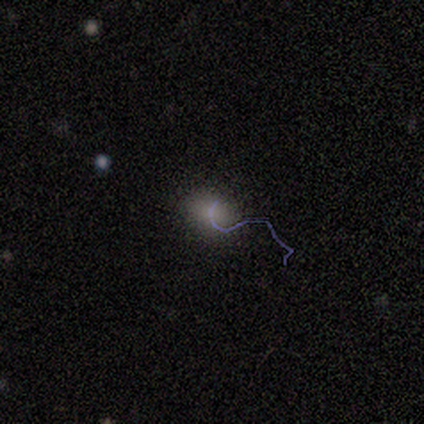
This is marginally a smooth galaxy (40%, tied with star or artifact). How rounded: possibly round (50%, tied with in between). Merging: likely none (67%).